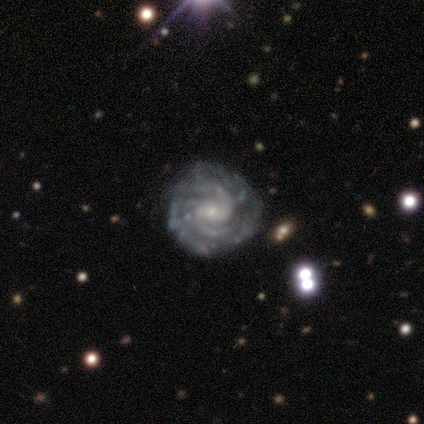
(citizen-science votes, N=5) A featured or disk galaxy (100%) with a weak bar (40%, tied with no), 4 (60%) tight (100%) spiral arms (100%) and a small central bulge (80%).

Vote fractions:
- Smooth or featured? featured or disk: 100% / smooth: 0% / star or artifact: 0%
- Edge-on disk? no: 100% / yes: 0%
- Bar? weak: 40% (tied) / no: 40% (tied) / strong: 20%
- Spiral arms? yes: 100% / no: 0%
- Spiral winding? tight: 100% / medium: 0% / loose: 0%
- Spiral arm count? 4: 60% / 2: 20% / 3: 20% / 1: 0% / more than 4: 0% / can't tell: 0%
- Bulge size? small: 80% / moderate: 20% / dominant: 0% / large: 0% / none: 0%
- Merging? none: 100% / minor disturbance: 0% / major disturbance: 0% / merger: 0%